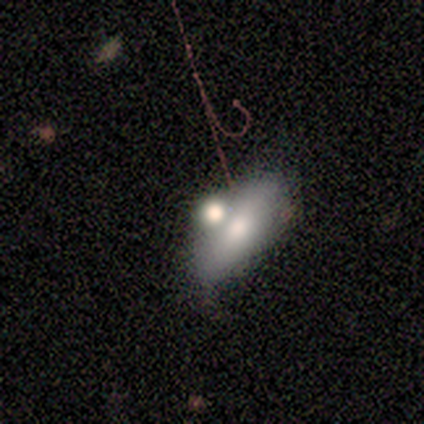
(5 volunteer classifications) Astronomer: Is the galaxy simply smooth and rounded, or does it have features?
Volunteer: featured or disk — 60% (runner-up: smooth, 40%).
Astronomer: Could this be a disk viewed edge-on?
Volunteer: no — 100%.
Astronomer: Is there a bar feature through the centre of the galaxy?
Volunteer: no — 100%.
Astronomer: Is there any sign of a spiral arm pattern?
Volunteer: no — 67%.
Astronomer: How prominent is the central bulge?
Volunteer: moderate — 100%.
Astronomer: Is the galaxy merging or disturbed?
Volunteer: merger — 40% (runner-up: none, 20%).